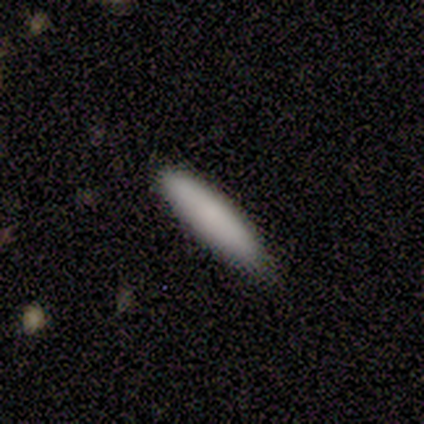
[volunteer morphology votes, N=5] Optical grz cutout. It shows a smooth galaxy with no disk features (100%) that is cigar-shaped (100%). Merging: none (60%).